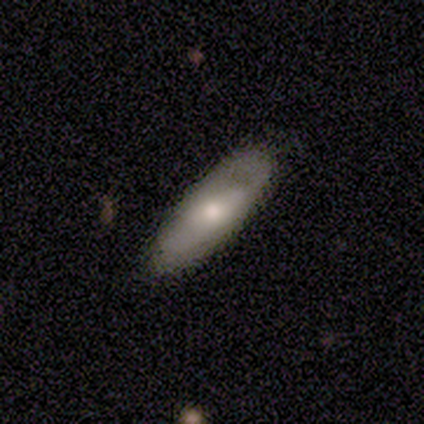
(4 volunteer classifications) Smooth or featured? featured or disk (75%)
Edge-on disk? no (100%)
Bar? no (67%)
Spiral arms? no (67%)
Bulge size? small (67%)
Merging? none (100%)